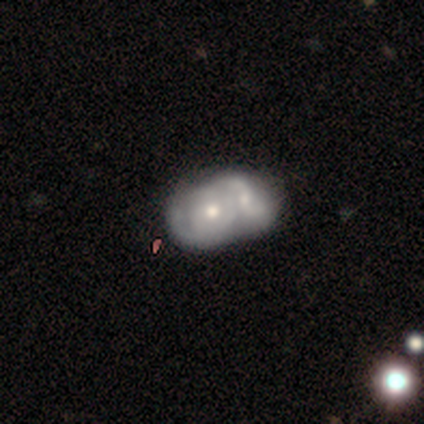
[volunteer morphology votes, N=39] A featured or disk galaxy (72%) with no bar (89%), medium (50%) spiral arms (57%) and a moderate central bulge (79%).

Vote fractions:
- Smooth or featured? featured or disk: 72% / smooth: 21% / star or artifact: 8%
- Edge-on disk? no: 100% / yes: 0%
- Bar? no: 89% / weak: 11% / strong: 0%
- Spiral arms? yes: 57% / no: 43%
- Spiral winding? medium: 50% / tight: 44% / loose: 6%
- Spiral arm count? can't tell: 50% / 2: 38% / 1: 12% / 3: 0% / 4: 0% / more than 4: 0%
- Bulge size? moderate: 79% / small: 14% / dominant: 4% / large: 4% / none: 0%
- Merging? merger: 83% / none: 14% / minor disturbance: 3% / major disturbance: 0%